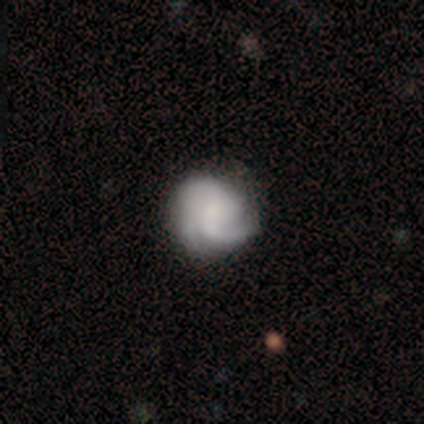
A featured or disk galaxy (77%) with no bar (67%), medium (45%) spiral arms (97%) and no central bulge (47%).

Vote fractions:
- Smooth or featured? featured or disk: 77% / smooth: 18% / star or artifact: 5%
- Edge-on disk? no: 100% / yes: 0%
- Bar? no: 67% / weak: 30% / strong: 3%
- Spiral arms? yes: 97% / no: 3%
- Spiral winding? medium: 45% / tight: 41% / loose: 14%
- Spiral arm count? can't tell: 38% / 2: 28% / 3: 28% / 4: 7% / 1: 0% / more than 4: 0%
- Bulge size? none: 47% / small: 27% / moderate: 17% / dominant: 10% / large: 0%
- Merging? none: 73% / minor disturbance: 16% / major disturbance: 11% / merger: 0%